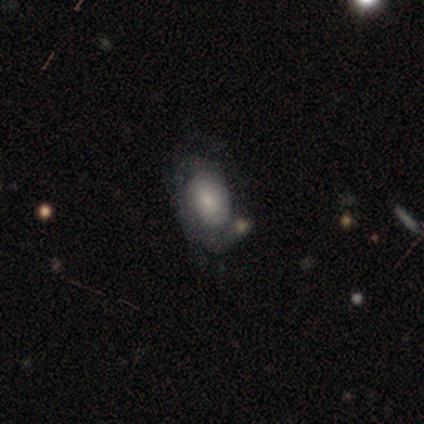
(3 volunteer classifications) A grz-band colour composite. It shows a smooth galaxy with no disk features (67%) that is in between round and cigar-shaped (100%). Merging: none (67%).